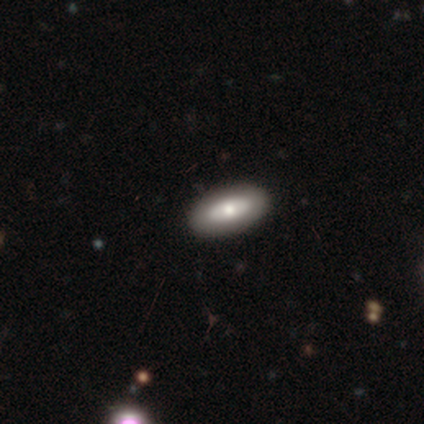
This is clearly a smooth galaxy (100%). How rounded: clearly in between (80%). Merging: clearly none (100%).